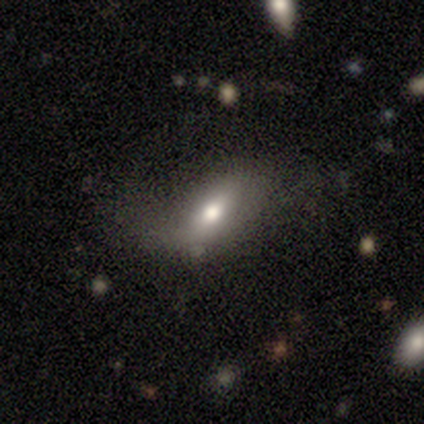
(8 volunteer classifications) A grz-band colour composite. It shows a smooth galaxy with no disk features (50%, tied with featured or disk) that is in between round and cigar-shaped (75%). Merging: none (38%, tied with major disturbance).